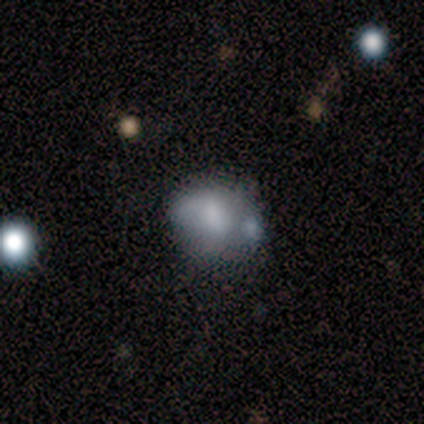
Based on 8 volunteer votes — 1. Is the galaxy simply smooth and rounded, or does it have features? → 50% smooth, 38% featured or disk, 12% star or artifact.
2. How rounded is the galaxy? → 50% round (tied), 50% in between (tied), 0% cigar-shaped.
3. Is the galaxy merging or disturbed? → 43% none (tied), 43% minor disturbance (tied), 14% major disturbance, 0% merger.